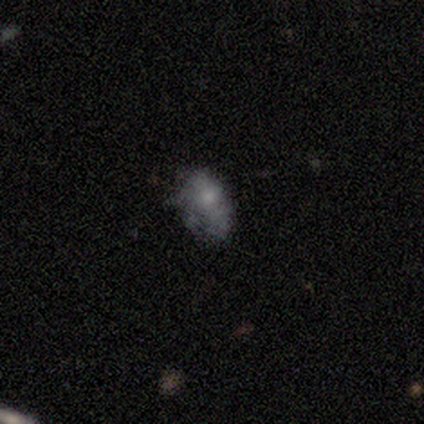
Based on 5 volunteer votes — Smooth or featured: featured or disk — 60% (smooth — 20%)
Edge-on disk: no — 100%
Bar: no — 100%
Spiral arms: no — 67% (yes — 33%)
Bulge size: moderate — 33% (tied with small — 33%; none — 33%)
Merging: none — 75% (minor disturbance — 25%)